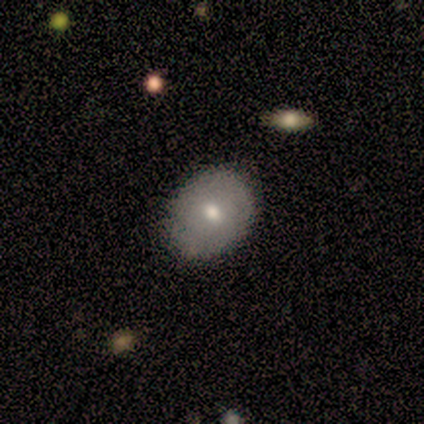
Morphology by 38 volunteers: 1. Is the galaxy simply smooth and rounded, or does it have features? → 66% smooth, 29% featured or disk, 5% star or artifact.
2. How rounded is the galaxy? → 60% in between, 40% round, 0% cigar-shaped.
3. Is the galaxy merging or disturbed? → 81% none, 19% minor disturbance, 0% major disturbance, 0% merger.